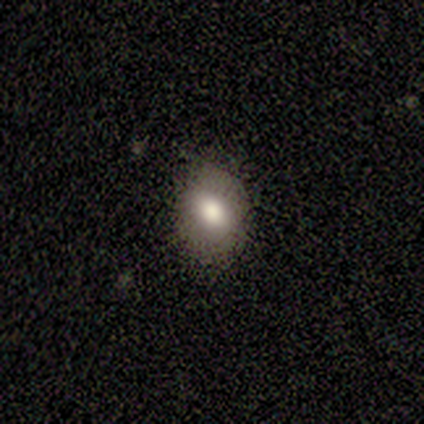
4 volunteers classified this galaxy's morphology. Smooth or featured?
  - smooth: 100% *
  - featured or disk: 0%
  - star or artifact: 0%
How rounded?
  - in between: 100% *
  - round: 0%
  - cigar-shaped: 0%
Merging?
  - none: 75% *
  - minor disturbance: 25%
  - major disturbance: 0%
  - merger: 0%